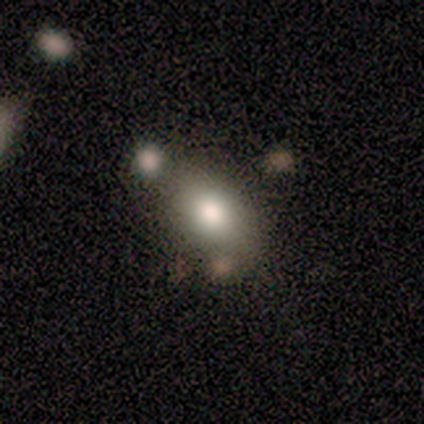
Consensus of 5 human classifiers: This appears to be a smooth galaxy with no disk features (80%) that is in between round and cigar-shaped (100%). Merging: merger (75%).